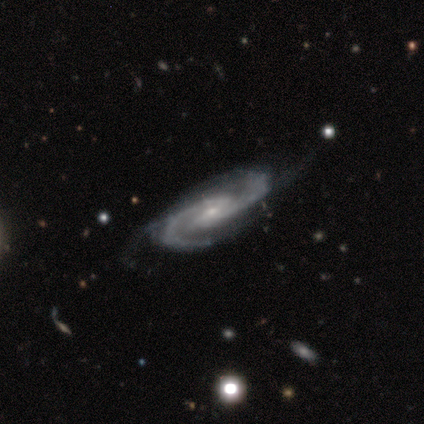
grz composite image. It shows a featured or disk galaxy (98%) with a weak bar (58%), 2 (80%) medium (74%) spiral arms (97%) and a small central bulge (75%). Merging: none (55%).